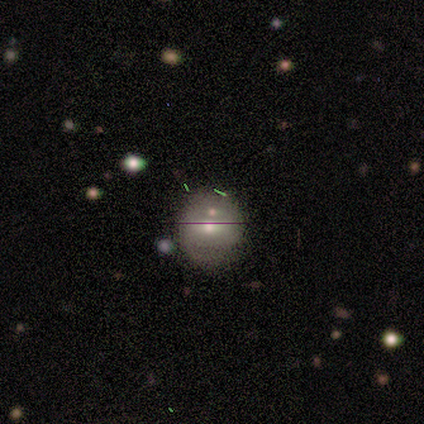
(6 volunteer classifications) This is possibly a smooth galaxy (50%, tied with featured or disk). How rounded: clearly round (100%). Merging: likely none (67%).